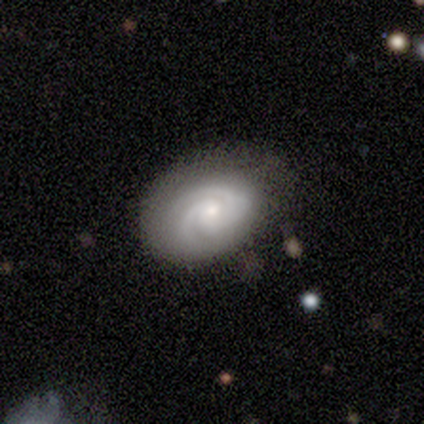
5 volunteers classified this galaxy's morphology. Smooth or featured? featured or disk (100%)
Edge-on disk? no (100%)
Bar? no (80%)
Spiral arms? yes (100%)
Spiral winding? tight (40%, tied with medium)
Spiral arm count? 2 (60%)
Bulge size? moderate (60%)
Merging? none (60%)